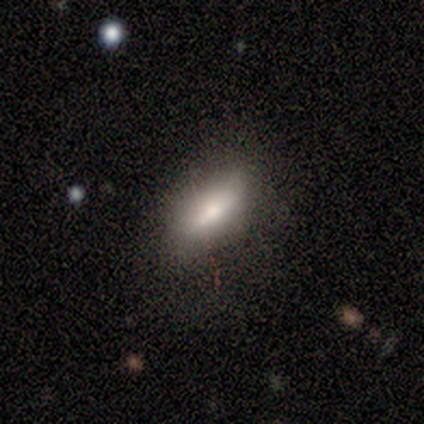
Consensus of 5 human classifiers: Smooth or featured? smooth (80%)
How rounded? in between (75%)
Merging? none (60%)